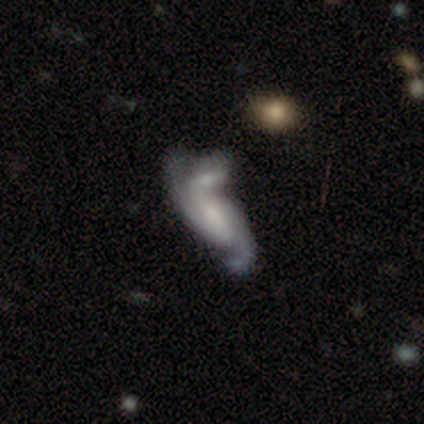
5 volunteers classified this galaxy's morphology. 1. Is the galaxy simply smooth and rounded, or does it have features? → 100% featured or disk, 0% smooth, 0% star or artifact.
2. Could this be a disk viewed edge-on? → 80% no, 20% yes.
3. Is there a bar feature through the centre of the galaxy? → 50% no, 25% strong, 25% weak.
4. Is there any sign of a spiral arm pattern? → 75% yes, 25% no.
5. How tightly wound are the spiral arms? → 67% medium, 33% loose, 0% tight.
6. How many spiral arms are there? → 33% 1 (tied), 33% 2 (tied), 33% 3 (tied), 0% 4, 0% more than 4, 0% can't tell.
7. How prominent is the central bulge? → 75% none, 25% small, 0% dominant, 0% large, 0% moderate.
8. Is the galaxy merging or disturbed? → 40% none (tied), 40% merger (tied), 20% major disturbance, 0% minor disturbance.